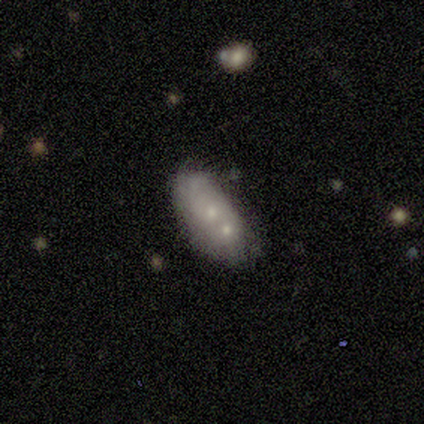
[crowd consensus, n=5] smooth_or_featured: featured or disk (p=0.80) [alt: smooth p=0.20]
disk_edge_on: no (p=1.00)
bar: no (p=0.75) [alt: strong p=0.25]
has_spiral_arms: yes (p=0.75) [alt: no p=0.25]
spiral_winding: tight (p=0.67) [alt: loose p=0.33]
spiral_arm_count: 1 (p=0.67) [alt: can't tell p=0.33]
bulge_size: large (p=0.25) [tied with: moderate p=0.25, small p=0.25, none p=0.25]
merging: none (p=0.60) [alt: minor disturbance p=0.20]